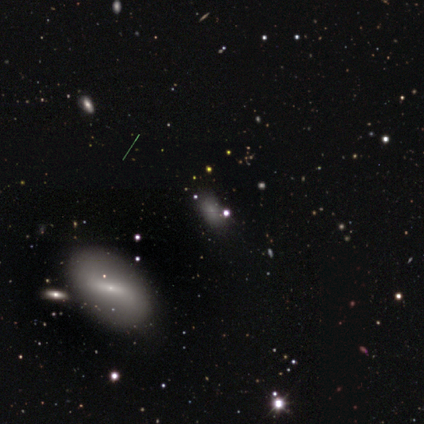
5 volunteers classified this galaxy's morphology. Smooth or featured?
  - smooth: 40% * (tied)
  - star or artifact: 40% * (tied)
  - featured or disk: 20%
How rounded?
  - in between: 100% *
  - round: 0%
  - cigar-shaped: 0%
Merging?
  - none: 67% *
  - minor disturbance: 33%
  - major disturbance: 0%
  - merger: 0%